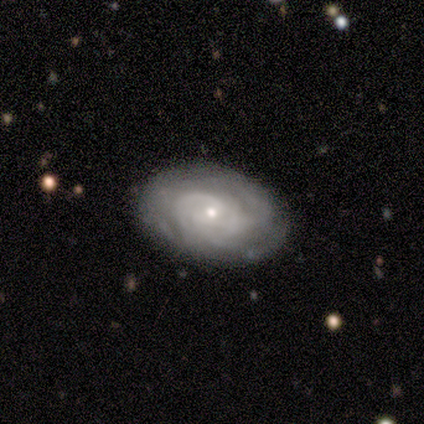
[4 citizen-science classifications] A featured or disk galaxy (100%) with no bar (100%), tight (100%) spiral arms (75%) and a small central bulge (75%). Merging: none (100%).